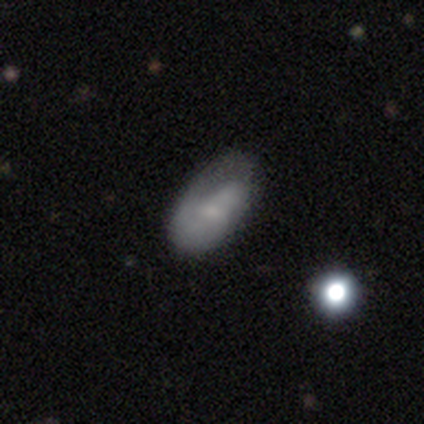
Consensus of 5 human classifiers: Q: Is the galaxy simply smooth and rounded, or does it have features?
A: featured or disk — 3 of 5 (60%).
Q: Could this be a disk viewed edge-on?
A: no — 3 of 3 (100%).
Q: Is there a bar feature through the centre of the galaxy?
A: weak — 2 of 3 (67%).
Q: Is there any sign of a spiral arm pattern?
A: no — 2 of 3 (67%).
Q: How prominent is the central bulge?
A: small — 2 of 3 (67%).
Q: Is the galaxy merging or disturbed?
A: major disturbance — 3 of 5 (60%).